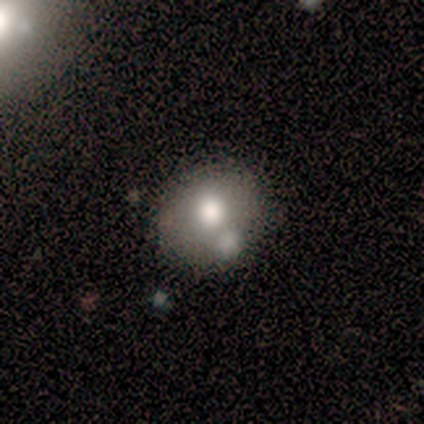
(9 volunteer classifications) This appears to be a smooth galaxy with no disk features (78%) that is in between round and cigar-shaped (57%). Merging: none (44%).